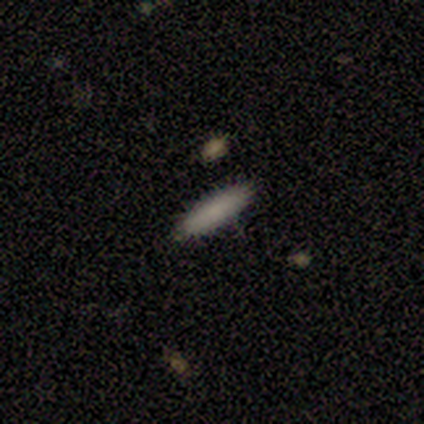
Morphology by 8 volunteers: type=smooth (88%); roundness=cigar-shaped (71%); merging=none (100%).